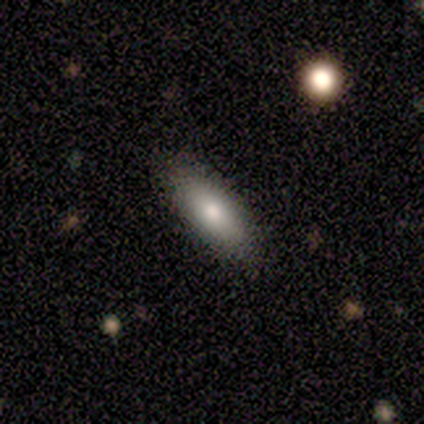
smooth_or_featured: smooth (p=0.80) [alt: featured or disk p=0.20]
how_rounded: in between (p=0.50) [tied with: cigar-shaped p=0.50]
merging: none (p=0.80) [alt: major disturbance p=0.20]